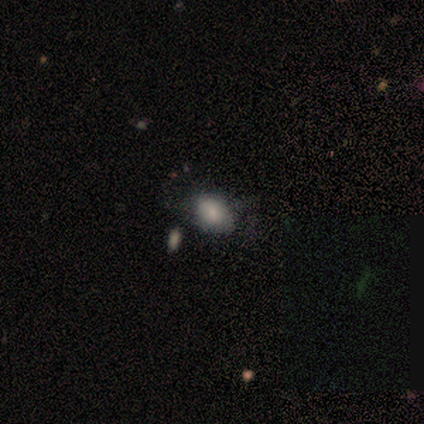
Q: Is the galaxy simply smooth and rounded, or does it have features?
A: smooth — 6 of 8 (75%).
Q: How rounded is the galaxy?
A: in between — 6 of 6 (100%).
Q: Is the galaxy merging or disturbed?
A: none — 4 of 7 (57%).